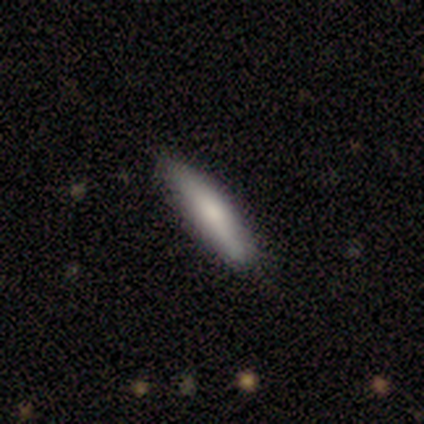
Smooth or featured?
  - smooth: 75% *
  - featured or disk: 25%
  - star or artifact: 0%
How rounded?
  - cigar-shaped: 78% *
  - in between: 22%
  - round: 0%
Merging?
  - none: 83% *
  - minor disturbance: 17%
  - major disturbance: 0%
  - merger: 0%